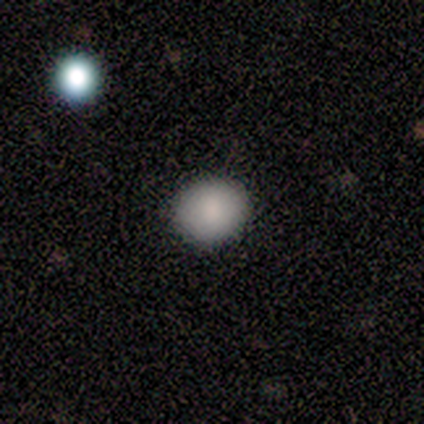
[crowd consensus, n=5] Morphology: type=smooth (100%); roundness=round (60%); merging=none (80%).